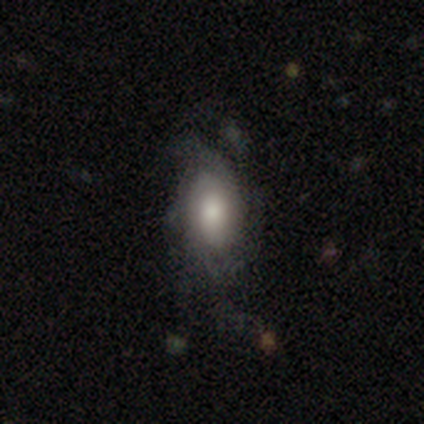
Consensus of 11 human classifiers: This appears to be a featured or disk galaxy (82%) with no bar (75%), tight (33%, tied with medium and loose) spiral arms (75%) and a moderate central bulge (62%). Merging: none (55%).